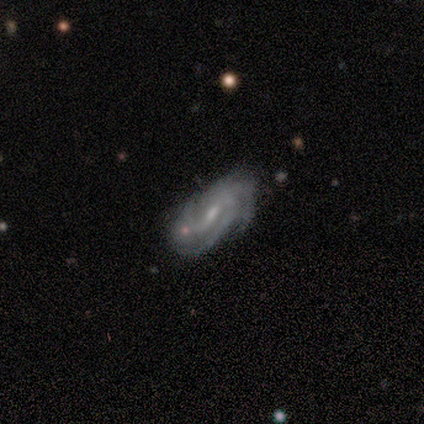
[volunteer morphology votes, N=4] Smooth or featured? 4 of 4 (100%) said featured or disk. Edge-on disk? 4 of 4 (100%) said no. Bar? 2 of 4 (50%, tied with no) said weak. Spiral arms? 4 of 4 (100%) said yes. Spiral winding? 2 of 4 (50%, tied with medium) said tight. Spiral arm count? 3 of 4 (75%) said 3. Bulge size? 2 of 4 (50%, tied with small) said moderate. Merging? 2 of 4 (50%, tied with minor disturbance) said none.